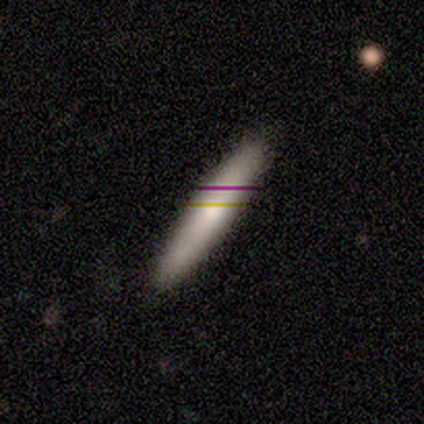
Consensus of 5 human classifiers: Smooth or featured: smooth — 80% (featured or disk — 20%)
How rounded: cigar-shaped — 100%
Merging: none — 80% (minor disturbance — 20%)